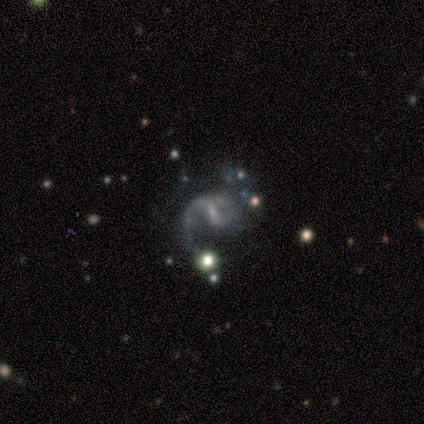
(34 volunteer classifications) Volunteers were most divided on "merging": none: 46%, minor disturbance: 29%, major disturbance: 14%, merger: 11%. More confident: edge-on disk — no (100%); spiral arms — yes (89%); smooth or featured — featured or disk (79%); spiral arm count — 2 (79%); bulge size — small (78%); spiral winding — loose (75%); bar — weak (59%).